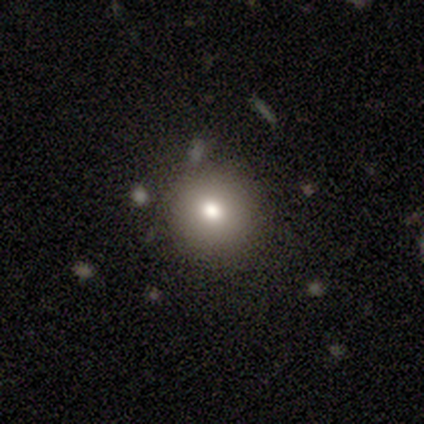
A smooth galaxy with no disk features (72%) that is round (93%).

Vote fractions:
- Smooth or featured? smooth: 72% / star or artifact: 15% / featured or disk: 12%
- How rounded? round: 93% / in between: 7% / cigar-shaped: 0%
- Merging? none: 91% / merger: 6% / minor disturbance: 3% / major disturbance: 0%